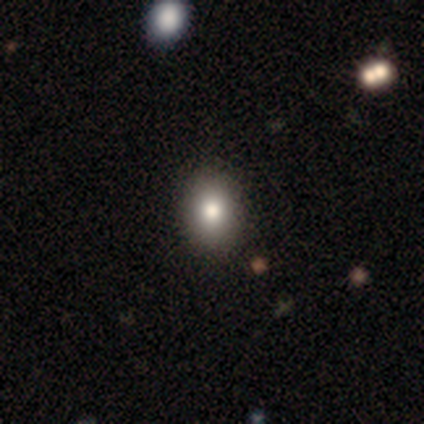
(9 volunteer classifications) Smooth or featured: smooth — 78% (featured or disk — 11%)
How rounded: in between — 57% (round — 43%)
Merging: none — 75% (minor disturbance — 25%)